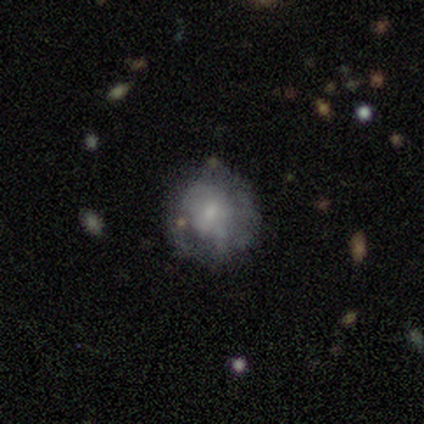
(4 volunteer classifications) Smooth or featured?
  - featured or disk: 75% *
  - star or artifact: 25%
  - smooth: 0%
Edge-on disk?
  - no: 100% *
  - yes: 0%
Bar?
  - no: 100% *
  - strong: 0%
  - weak: 0%
Spiral arms?
  - yes: 67% *
  - no: 33%
Spiral winding?
  - tight: 100% *
  - medium: 0%
  - loose: 0%
Spiral arm count?
  - can't tell: 100% *
  - 1: 0%
  - 2: 0%
  - 3: 0%
  - 4: 0%
  - more than 4: 0%
Bulge size?
  - large: 33% * (tied)
  - moderate: 33% * (tied)
  - small: 33% * (tied)
  - dominant: 0%
  - none: 0%
Merging?
  - none: 100% *
  - minor disturbance: 0%
  - major disturbance: 0%
  - merger: 0%